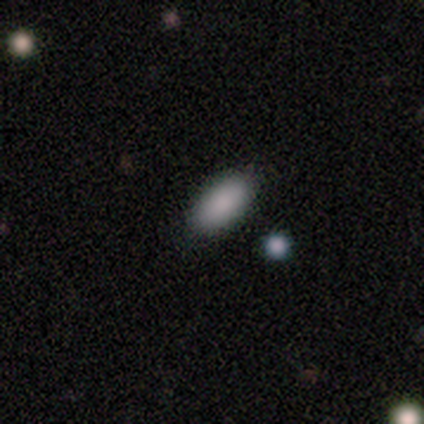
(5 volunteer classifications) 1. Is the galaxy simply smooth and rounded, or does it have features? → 100% smooth, 0% featured or disk, 0% star or artifact.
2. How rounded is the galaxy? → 100% in between, 0% round, 0% cigar-shaped.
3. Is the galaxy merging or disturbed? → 80% none, 20% minor disturbance, 0% major disturbance, 0% merger.